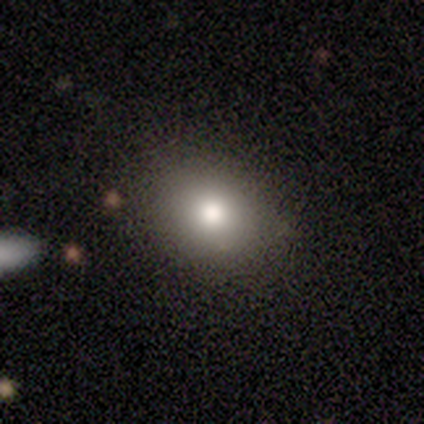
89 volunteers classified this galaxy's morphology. Smooth or featured?
  - smooth: 79% *
  - featured or disk: 11%
  - star or artifact: 10%
How rounded?
  - round: 66% *
  - in between: 33%
  - cigar-shaped: 1%
Merging?
  - none: 76% *
  - minor disturbance: 18%
  - major disturbance: 5%
  - merger: 1%